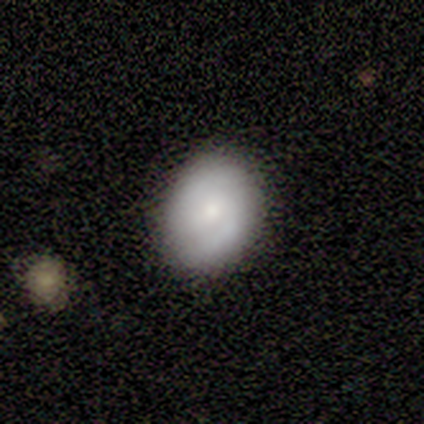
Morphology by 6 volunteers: A smooth galaxy with no disk features (67%) that is round (50%, tied with in between).

Vote fractions:
- Smooth or featured? smooth: 67% / featured or disk: 17% / star or artifact: 17%
- How rounded? round: 50% (tied) / in between: 50% (tied) / cigar-shaped: 0%
- Merging? none: 80% / merger: 20% / minor disturbance: 0% / major disturbance: 0%